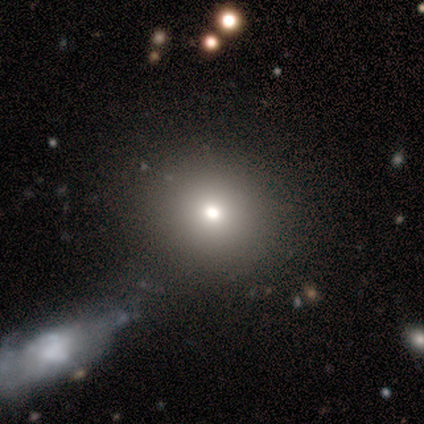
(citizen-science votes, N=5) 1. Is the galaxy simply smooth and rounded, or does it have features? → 80% smooth, 20% star or artifact, 0% featured or disk.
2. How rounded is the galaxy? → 75% round, 25% in between, 0% cigar-shaped.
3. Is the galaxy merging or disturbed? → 75% none, 25% merger, 0% minor disturbance, 0% major disturbance.